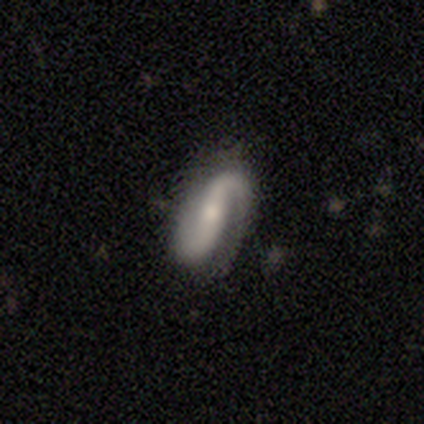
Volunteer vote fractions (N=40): featured or disk 90%, smooth 10%, star or artifact 0%. Down the decision tree: edge-on disk — no (92%); bar — strong (48%); spiral arms — yes (97%); spiral arm count — 2 (78%); spiral winding — medium (50%); bulge size — small (58%); merging — none (68%).